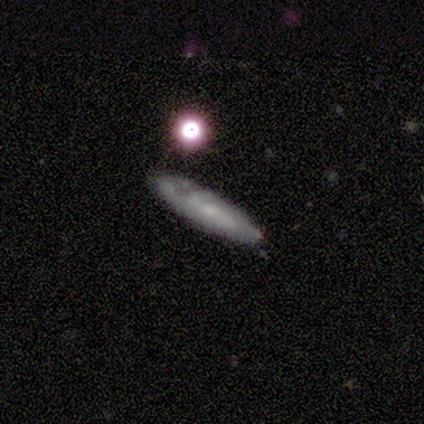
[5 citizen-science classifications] This appears to be a smooth galaxy with no disk features (100%) that is cigar-shaped (80%). Merging: none (80%).